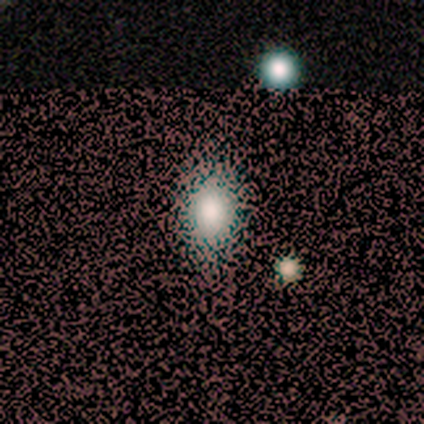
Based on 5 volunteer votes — This appears to be a smooth galaxy with no disk features (100%) that is in between round and cigar-shaped (60%). Merging: none (80%).